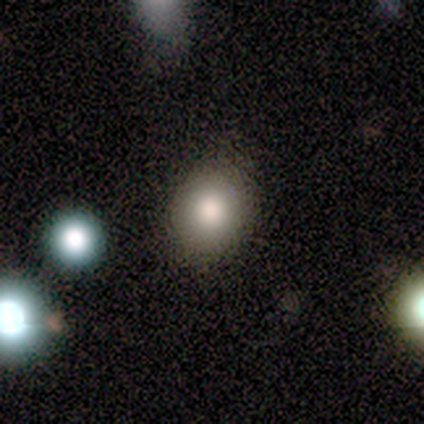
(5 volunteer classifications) A smooth galaxy with no disk features (80%) that is round (75%).

Vote fractions:
- Smooth or featured? smooth: 80% / star or artifact: 20% / featured or disk: 0%
- How rounded? round: 75% / in between: 25% / cigar-shaped: 0%
- Merging? none: 75% / minor disturbance: 25% / major disturbance: 0% / merger: 0%